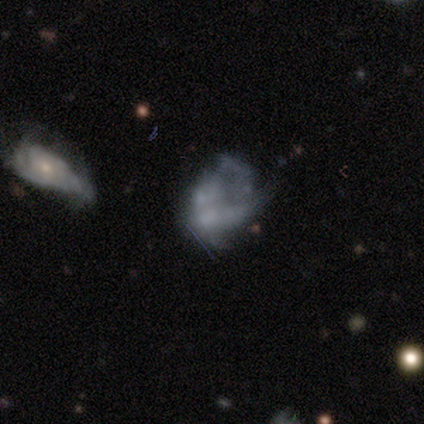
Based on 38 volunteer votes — A featured or disk galaxy (68%) with no bar (88%), no spiral arms (62%) and no central bulge (65%). Merging: major disturbance (39%).